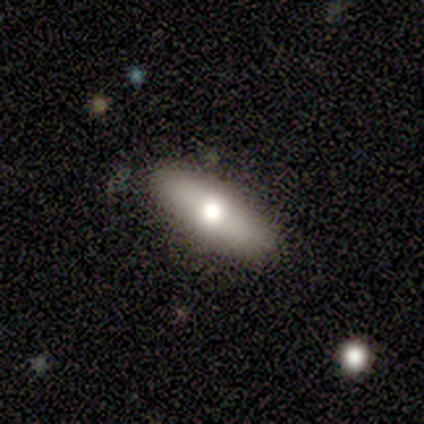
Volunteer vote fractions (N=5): Smooth or featured? 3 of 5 (60%) said featured or disk. Edge-on disk? 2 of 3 (67%) said no. Bar? 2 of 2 (100%) said no. Spiral arms? 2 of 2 (100%) said no. Bulge size? 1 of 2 (50%, tied with moderate) said large. Merging? 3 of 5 (60%) said none.